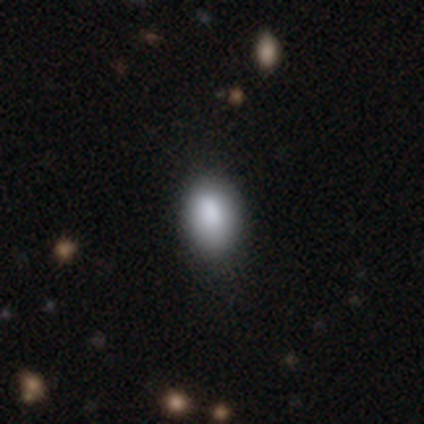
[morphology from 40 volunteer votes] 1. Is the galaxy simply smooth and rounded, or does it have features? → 95% smooth, 5% featured or disk, 0% star or artifact.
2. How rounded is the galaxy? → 82% in between, 18% round, 0% cigar-shaped.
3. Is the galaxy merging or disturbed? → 70% none, 10% minor disturbance, 2% major disturbance, 2% merger.